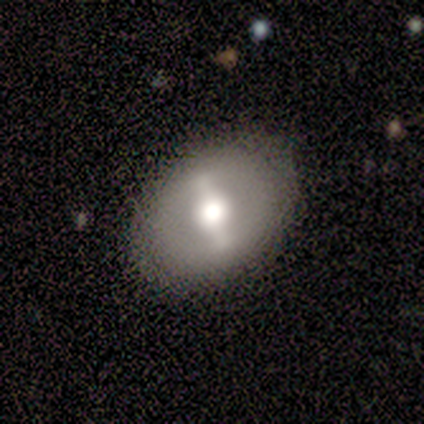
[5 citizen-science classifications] Smooth or featured? 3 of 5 (60%) said smooth. How rounded? 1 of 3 (33%, tied with in between and cigar-shaped) said round. Merging? 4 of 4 (100%) said none.